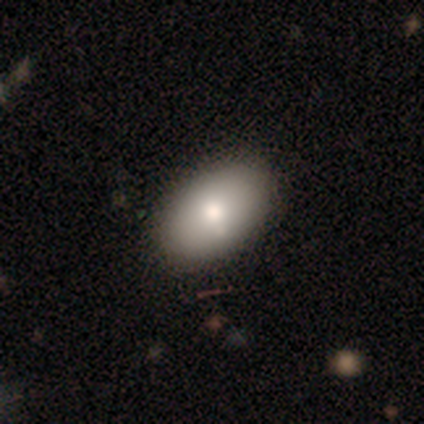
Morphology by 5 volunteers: Smooth or featured? 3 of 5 (60%) said smooth. How rounded? 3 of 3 (100%) said in between. Merging? 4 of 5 (80%) said none.